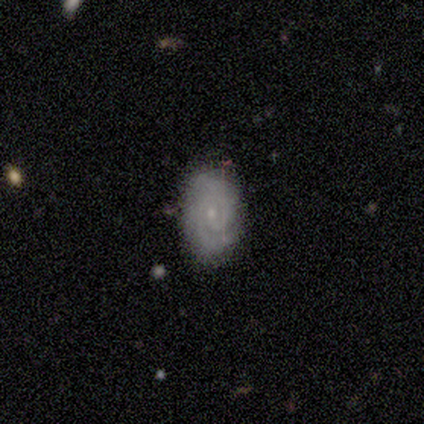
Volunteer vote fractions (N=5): This is clearly a featured or disk galaxy (80%). It is clearly not viewed edge-on (100%). Bar: likely no (75%). Spiral arm pattern: clearly yes (100%). Spiral arm count: likely 2 (75%). Spiral winding: likely tight (75%). Central bulge: likely small (75%). Merging: clearly none (100%).